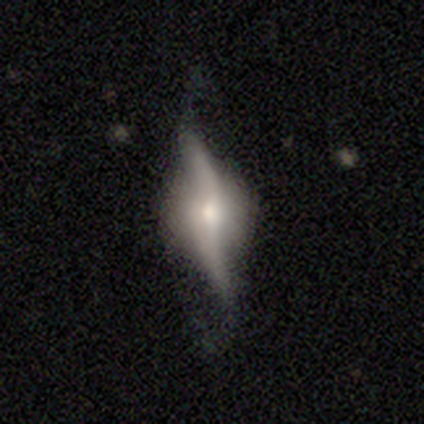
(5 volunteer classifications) Morphology: type=featured or disk (80%); edge-on=yes (50%, tied with no); edge-on bulge=rounded (100%); merging=none (80%).